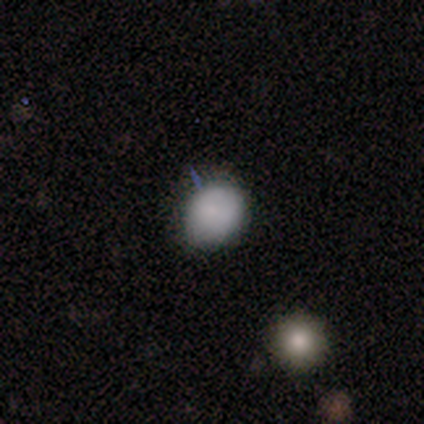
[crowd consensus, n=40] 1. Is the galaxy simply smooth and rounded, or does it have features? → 80% smooth, 18% star or artifact, 2% featured or disk.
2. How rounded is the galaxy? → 72% round, 28% in between, 0% cigar-shaped.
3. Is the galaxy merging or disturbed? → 70% none, 30% minor disturbance, 0% major disturbance, 0% merger.